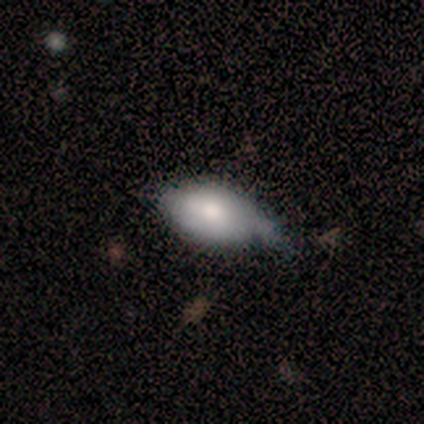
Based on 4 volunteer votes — Overall: smooth (75%). How rounded: in between (100%). Merging: none (50%; minor disturbance 25%).